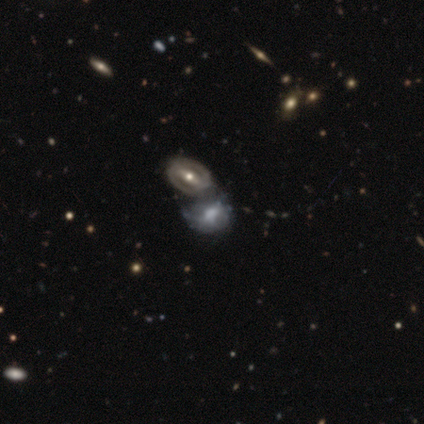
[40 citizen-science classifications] Smooth or featured?
  - featured or disk: 80% *
  - smooth: 18%
  - star or artifact: 2%
Edge-on disk?
  - no: 97% *
  - yes: 3%
Bar?
  - strong: 52% *
  - no: 29%
  - weak: 19%
Spiral arms?
  - no: 61% *
  - yes: 39%
Bulge size?
  - moderate: 68% *
  - small: 19%
  - large: 6%
  - none: 6%
  - dominant: 0%
Merging?
  - merger: 56% *
  - none: 18%
  - minor disturbance: 10%
  - major disturbance: 8%